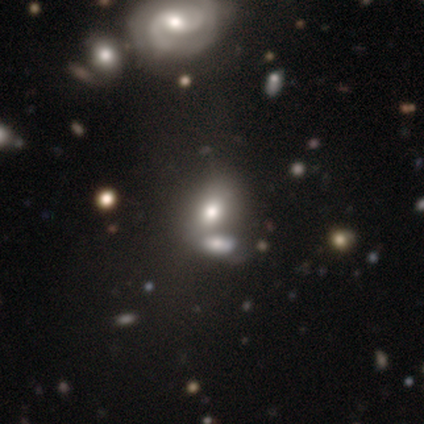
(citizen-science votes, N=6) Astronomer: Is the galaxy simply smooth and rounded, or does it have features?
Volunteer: smooth — 50% (runner-up: featured or disk, 33%).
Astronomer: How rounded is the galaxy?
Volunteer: in between — 100%.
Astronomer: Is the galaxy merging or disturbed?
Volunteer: none — 40%, tied with merger at 40%.